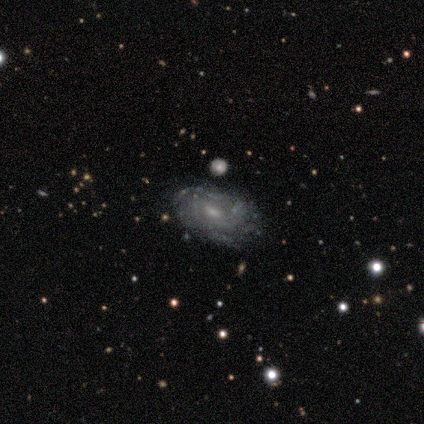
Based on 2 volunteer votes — A featured or disk galaxy (100%) with a weak bar (100%), more than 4 (50%, tied with can't tell) tight (50%, tied with medium) spiral arms (100%) and a small central bulge (100%).

Vote fractions:
- Smooth or featured? featured or disk: 100% / smooth: 0% / star or artifact: 0%
- Edge-on disk? no: 100% / yes: 0%
- Bar? weak: 100% / strong: 0% / no: 0%
- Spiral arms? yes: 100% / no: 0%
- Spiral winding? tight: 50% (tied) / medium: 50% (tied) / loose: 0%
- Spiral arm count? more than 4: 50% (tied) / can't tell: 50% (tied) / 1: 0% / 2: 0% / 3: 0% / 4: 0%
- Bulge size? small: 100% / dominant: 0% / large: 0% / moderate: 0% / none: 0%
- Merging? none: 50% (tied) / major disturbance: 50% (tied) / minor disturbance: 0% / merger: 0%